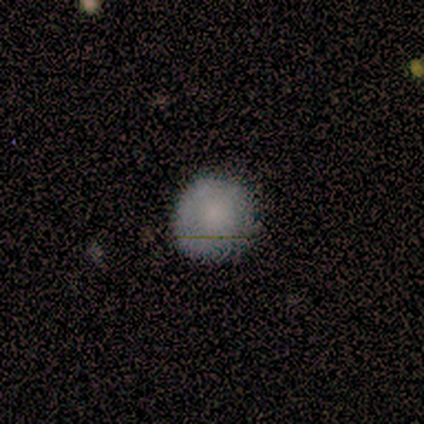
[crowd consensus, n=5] This is clearly a smooth galaxy (80%). How rounded: clearly round (100%). Merging: clearly none (80%).